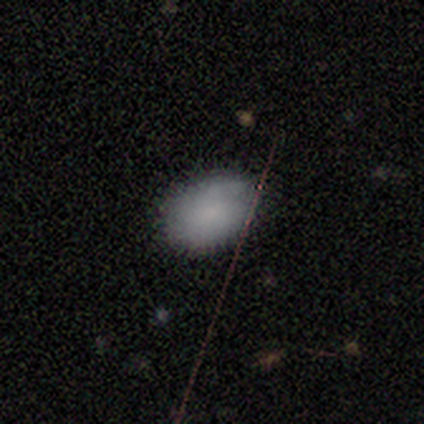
This appears to be a smooth galaxy with no disk features (80%) that is in between round and cigar-shaped (100%). Merging: none (60%).